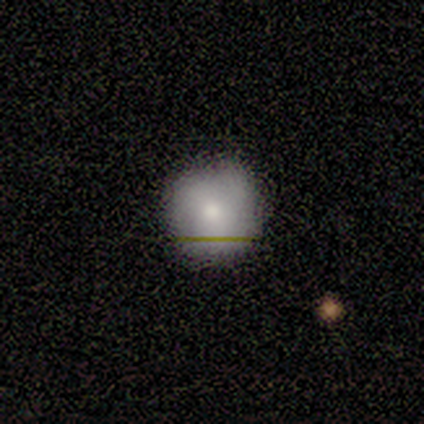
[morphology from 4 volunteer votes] This appears to be a smooth galaxy with no disk features (100%) that is round (100%). Merging: none (100%).